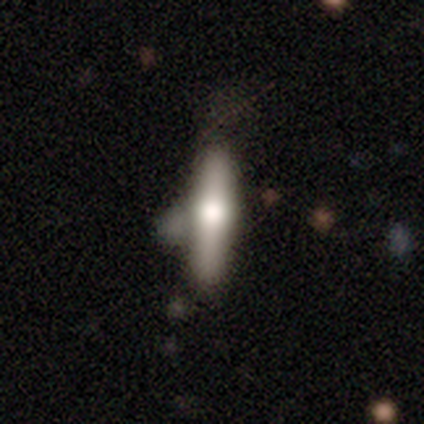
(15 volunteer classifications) Smooth or featured? 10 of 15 (67%) said featured or disk. Edge-on disk? 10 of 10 (100%) said yes. Edge-on bulge? 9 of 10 (90%) said rounded. Merging? 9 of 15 (60%) said none.